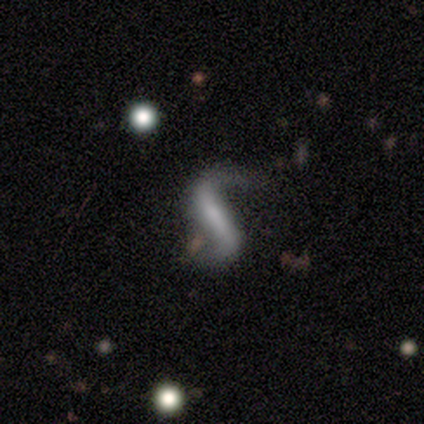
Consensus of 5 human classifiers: Smooth or featured?
  - featured or disk: 80% *
  - star or artifact: 20%
  - smooth: 0%
Edge-on disk?
  - no: 100% *
  - yes: 0%
Bar?
  - strong: 75% *
  - weak: 25%
  - no: 0%
Spiral arms?
  - yes: 100% *
  - no: 0%
Spiral winding?
  - loose: 100% *
  - tight: 0%
  - medium: 0%
Spiral arm count?
  - 2: 75% *
  - 1: 25%
  - 3: 0%
  - 4: 0%
  - more than 4: 0%
  - can't tell: 0%
Bulge size?
  - small: 50% * (tied)
  - none: 50% * (tied)
  - dominant: 0%
  - large: 0%
  - moderate: 0%
Merging?
  - none: 75% *
  - minor disturbance: 25%
  - major disturbance: 0%
  - merger: 0%